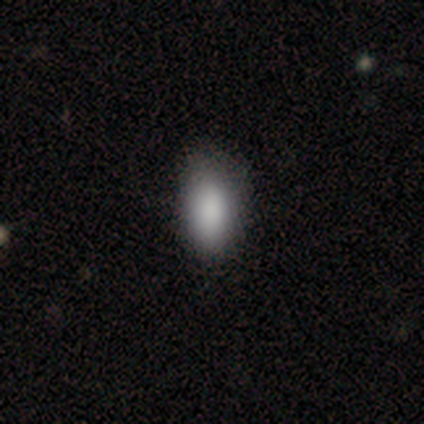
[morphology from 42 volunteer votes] This appears to be a smooth galaxy with no disk features (90%) that is in between round and cigar-shaped (89%). Merging: none (74%).